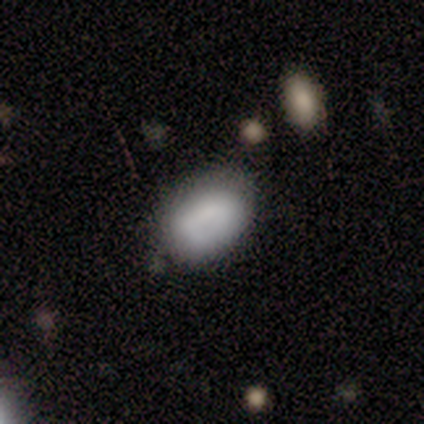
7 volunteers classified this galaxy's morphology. This is likely a smooth galaxy (71%). How rounded: clearly in between (80%). Merging: possibly none (50%).